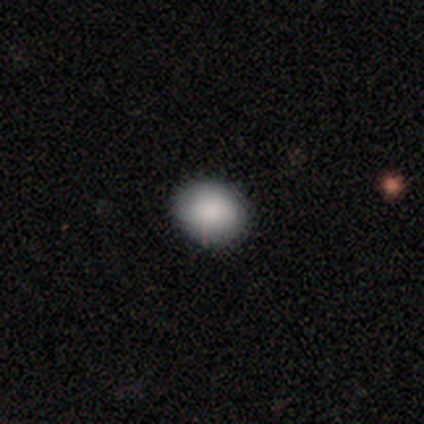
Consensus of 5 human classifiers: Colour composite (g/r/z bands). It shows a smooth galaxy with no disk features (100%) that is round (60%). Merging: none (100%).